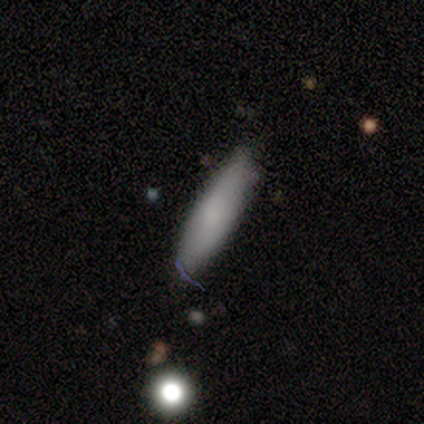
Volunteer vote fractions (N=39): Smooth or featured?
  - smooth: 69% *
  - featured or disk: 15%
  - star or artifact: 15%
How rounded?
  - cigar-shaped: 67% *
  - in between: 33%
  - round: 0%
Merging?
  - none: 79% *
  - minor disturbance: 21%
  - major disturbance: 0%
  - merger: 0%